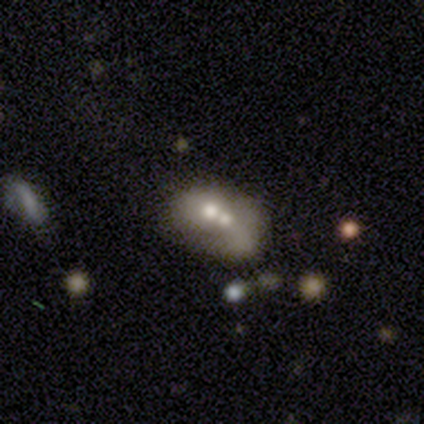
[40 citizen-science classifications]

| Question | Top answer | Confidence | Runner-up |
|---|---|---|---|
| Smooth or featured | featured or disk | 55% | smooth (42%) |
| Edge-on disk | no | 91% | yes (9%) |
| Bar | no | 85% | weak (10%) |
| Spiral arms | no | 95% | yes (5%) |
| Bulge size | moderate | 55% | small (25%) |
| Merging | merger | 64% | none (18%) |